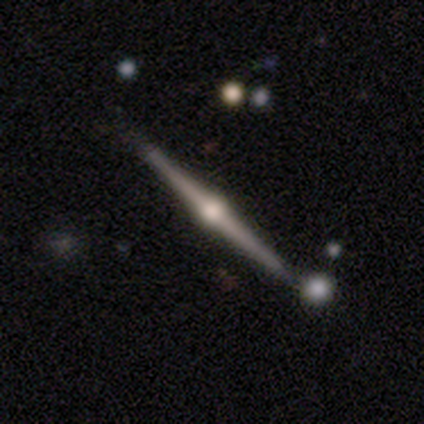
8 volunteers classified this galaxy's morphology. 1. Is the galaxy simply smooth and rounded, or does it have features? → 100% featured or disk, 0% smooth, 0% star or artifact.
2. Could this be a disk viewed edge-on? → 100% yes, 0% no.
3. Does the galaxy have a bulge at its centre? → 100% rounded, 0% boxy, 0% none.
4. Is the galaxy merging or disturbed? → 75% none, 12% minor disturbance, 12% merger, 0% major disturbance.